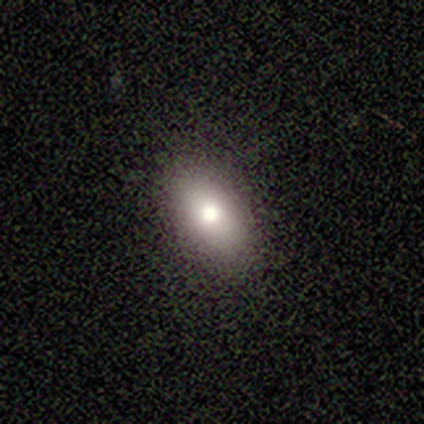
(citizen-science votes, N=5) This appears to be a smooth galaxy with no disk features (100%) that is in between round and cigar-shaped (100%). Merging: none (100%).